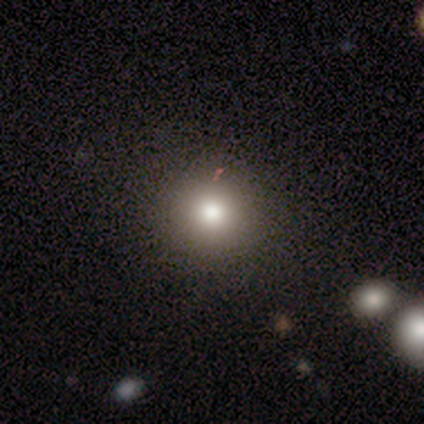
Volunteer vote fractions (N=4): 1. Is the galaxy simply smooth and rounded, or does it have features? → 75% star or artifact, 25% smooth, 0% featured or disk.